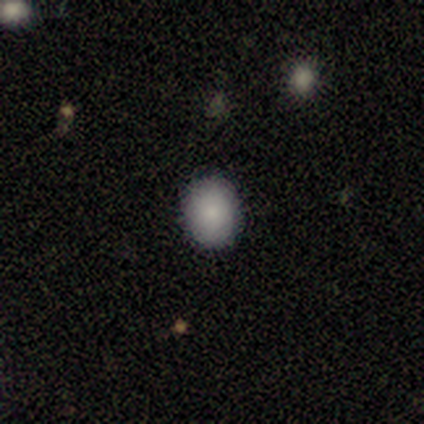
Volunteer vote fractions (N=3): smooth-or-featured: smooth: 100% | featured or disk: 0% | star or artifact: 0%
  how-rounded: round: 67% | in between: 33% | cigar-shaped: 0%
  merging: none: 100% | minor disturbance: 0% | major disturbance: 0% | merger: 0%